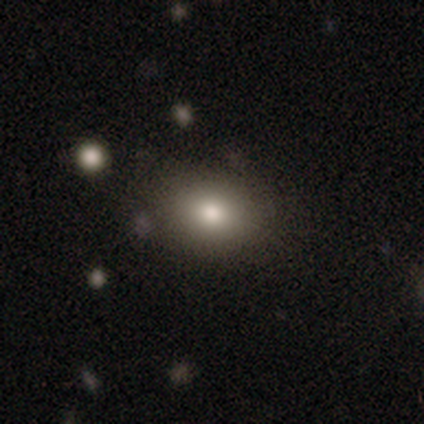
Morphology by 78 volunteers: Smooth or featured? 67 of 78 (86%) said smooth. How rounded? 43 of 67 (64%) said in between. Merging? 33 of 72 (46%) said none.